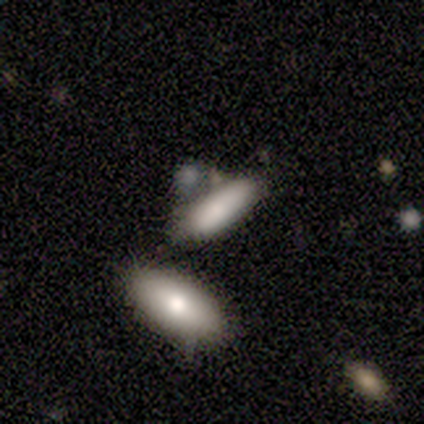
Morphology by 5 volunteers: type=smooth (80%); roundness=in between (75%); merging=none (40%, tied with merger).